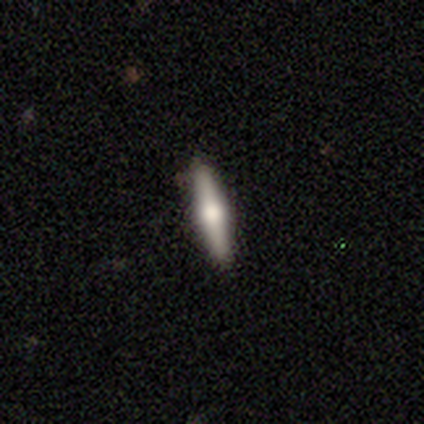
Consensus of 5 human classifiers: featured or disk 60%, smooth 40%, star or artifact 0%. Down the decision tree: edge-on disk — yes (100%); edge-on bulge — rounded (100%); merging — none (100%).